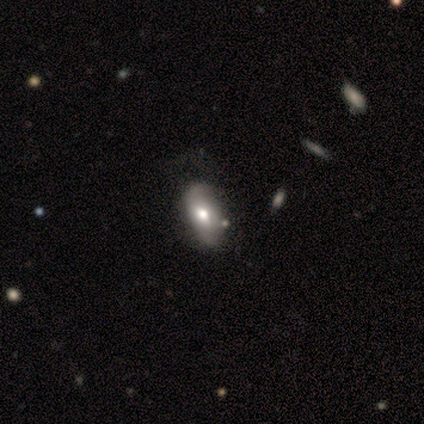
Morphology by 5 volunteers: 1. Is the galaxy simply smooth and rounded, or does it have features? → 60% smooth, 40% featured or disk, 0% star or artifact.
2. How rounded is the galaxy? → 100% in between, 0% round, 0% cigar-shaped.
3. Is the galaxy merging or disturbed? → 40% none (tied), 40% major disturbance (tied), 20% minor disturbance, 0% merger.